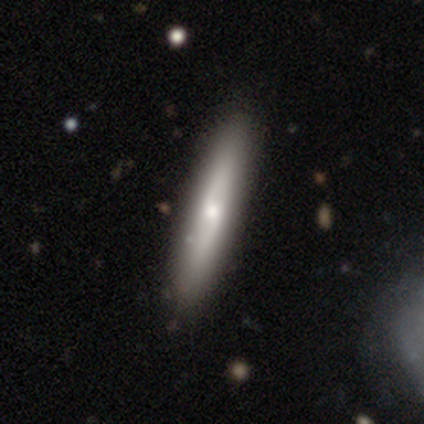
This is possibly a smooth galaxy (49%). How rounded: clearly cigar-shaped (84%). Merging: clearly none (92%).